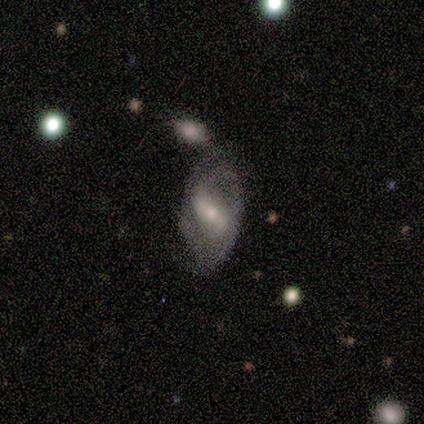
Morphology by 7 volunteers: A featured or disk galaxy (86%) with a weak bar (67%), 2 (40%) tight (60%) spiral arms (83%) and a small central bulge (67%). Merging: merger (57%).